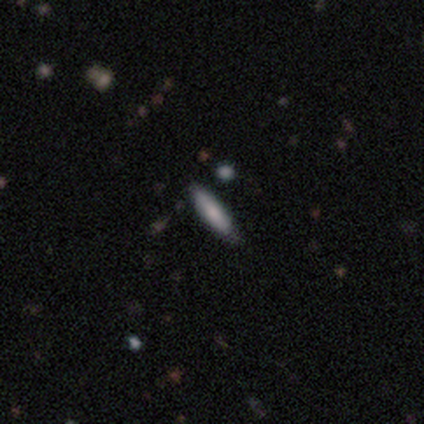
Smooth or featured: smooth — 100%
How rounded: cigar-shaped — 100%
Merging: none — 60% (minor disturbance — 40%)